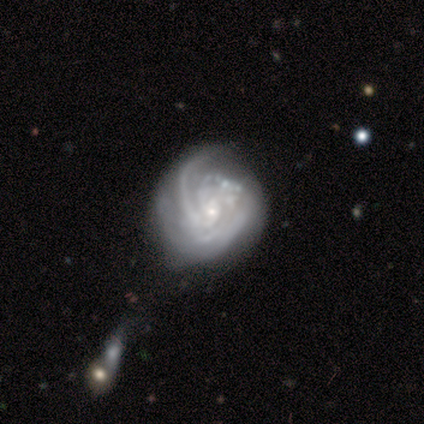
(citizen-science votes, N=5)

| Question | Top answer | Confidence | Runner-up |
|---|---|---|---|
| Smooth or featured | featured or disk | 100% | — |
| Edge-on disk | no | 100% | — |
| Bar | no | 60% | strong (20%) |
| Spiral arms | no | 60% | yes (40%) |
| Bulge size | small | 80% | moderate (20%) |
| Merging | none | 40% | tied: merger (40%) |